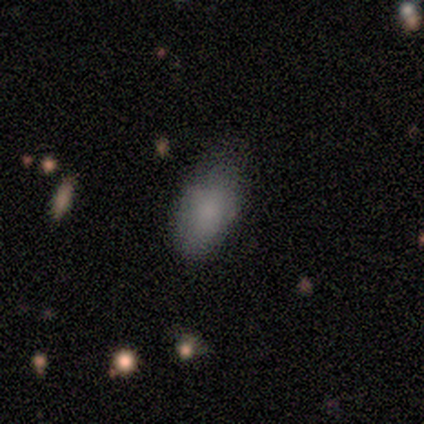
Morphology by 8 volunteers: Smooth or featured? 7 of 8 (88%) said smooth. How rounded? 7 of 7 (100%) said in between. Merging? 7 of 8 (88%) said none.